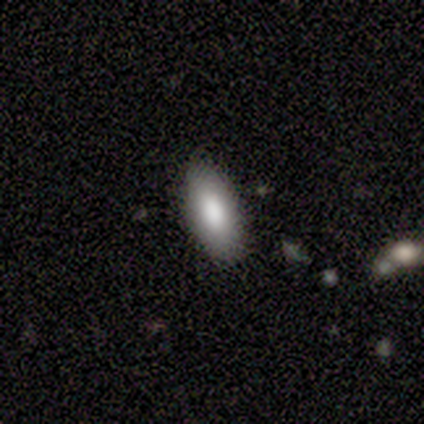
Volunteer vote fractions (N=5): smooth-or-featured: smooth: 80% | featured or disk: 20% | star or artifact: 0%
  how-rounded: in between: 75% | cigar-shaped: 25% | round: 0%
  merging: none: 100% | minor disturbance: 0% | major disturbance: 0% | merger: 0%